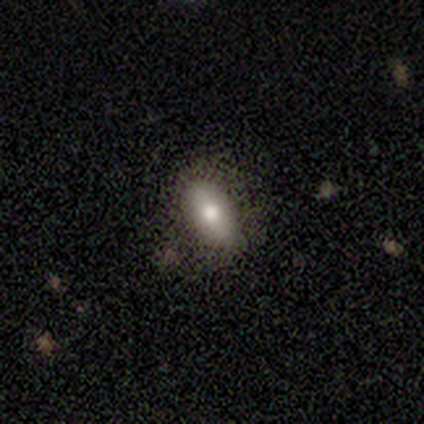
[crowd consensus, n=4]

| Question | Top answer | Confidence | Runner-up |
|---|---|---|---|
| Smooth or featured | smooth | 75% | featured or disk (25%) |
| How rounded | in between | 67% | cigar-shaped (33%) |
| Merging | none | 75% | minor disturbance (25%) |